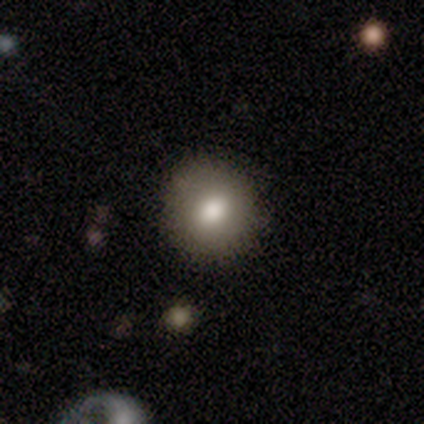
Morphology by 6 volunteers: Smooth or featured? smooth (100%)
How rounded? round (100%)
Merging? none (100%)